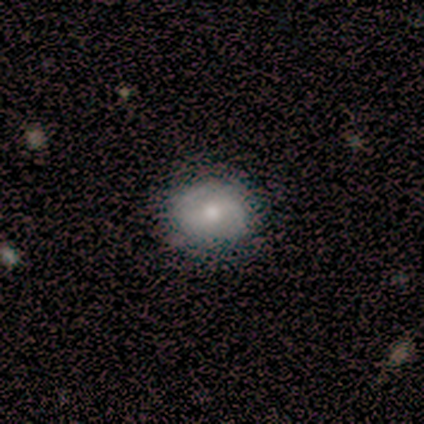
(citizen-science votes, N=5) Volunteers were most divided on "smooth or featured": smooth: 60%, featured or disk: 40%, star or artifact: 0%. More confident: merging — none (80%); how rounded — in between (67%).